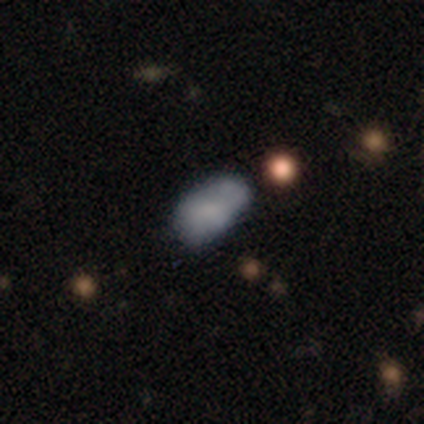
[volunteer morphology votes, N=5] Smooth or featured? smooth (60%)
How rounded? in between (100%)
Merging? merger (50%)